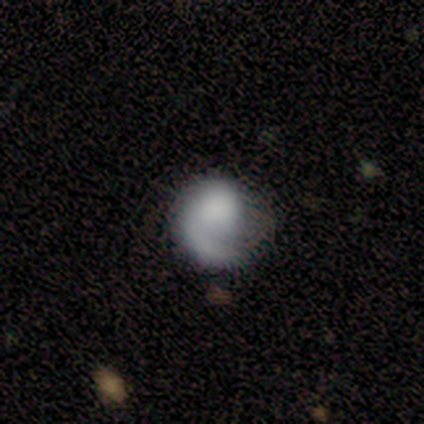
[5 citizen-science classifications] Volunteers were most divided on "smooth or featured": featured or disk: 60%, smooth: 40%, star or artifact: 0%. More confident: edge-on disk — no (100%); bar — no (100%); spiral winding — medium (100%); spiral arm count — 1 (100%); merging — none (80%); spiral arms — yes (67%); bulge size — moderate (67%).